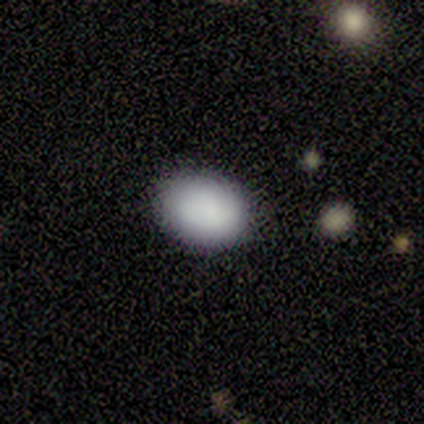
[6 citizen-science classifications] smooth 100%, featured or disk 0%, star or artifact 0%. Down the decision tree: how rounded — in between (67%); merging — none (100%).